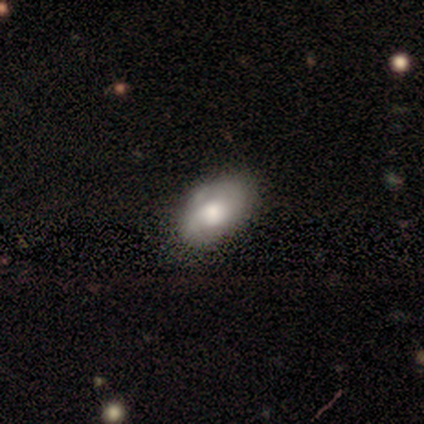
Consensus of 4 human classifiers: smooth-or-featured: smooth: 50% (tied) | featured or disk: 50% (tied) | star or artifact: 0%
  how-rounded: in between: 100% | round: 0% | cigar-shaped: 0%
  merging: none: 75% | minor disturbance: 25% | major disturbance: 0% | merger: 0%